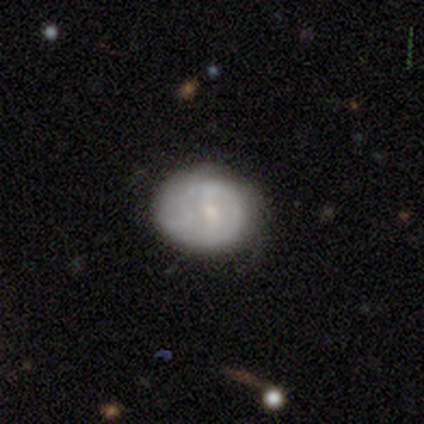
Smooth or featured? featured or disk (68%)
Edge-on disk? no (96%)
Bar? no (46%)
Spiral arms? yes (62%)
Spiral winding? tight (44%, tied with loose)
Spiral arm count? 1 (38%, tied with can't tell)
Bulge size? small (62%)
Merging? none (62%)